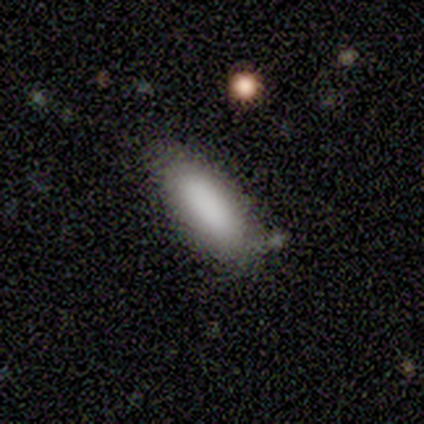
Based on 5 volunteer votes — Volunteers were most divided on "how rounded": in between: 60%, cigar-shaped: 40%, round: 0%. More confident: smooth or featured — smooth (100%); merging — none (100%).